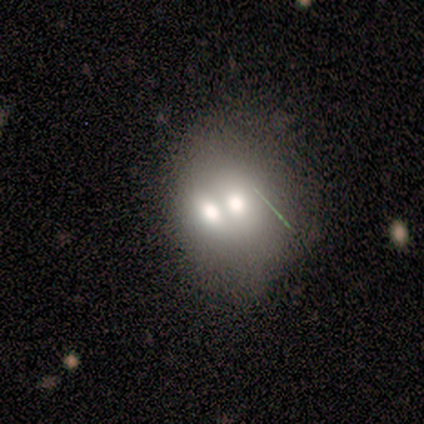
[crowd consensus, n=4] A smooth galaxy with no disk features (75%) that is round (100%).

Vote fractions:
- Smooth or featured? smooth: 75% / featured or disk: 25% / star or artifact: 0%
- How rounded? round: 100% / in between: 0% / cigar-shaped: 0%
- Merging? none: 50% (tied) / merger: 50% (tied) / minor disturbance: 0% / major disturbance: 0%